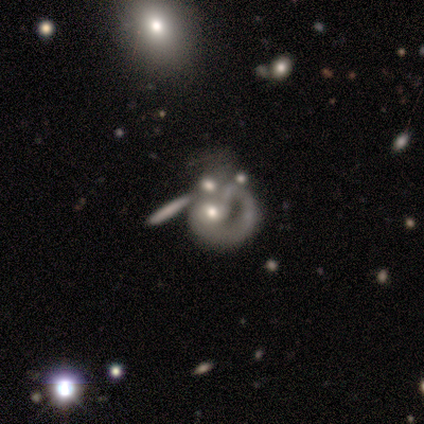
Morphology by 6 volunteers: Smooth or featured?
  - featured or disk: 50% *
  - smooth: 33%
  - star or artifact: 17%
Edge-on disk?
  - no: 100% *
  - yes: 0%
Bar?
  - no: 100% *
  - strong: 0%
  - weak: 0%
Spiral arms?
  - no: 67% *
  - yes: 33%
Bulge size?
  - moderate: 33% * (tied)
  - small: 33% * (tied)
  - none: 33% * (tied)
  - dominant: 0%
  - large: 0%
Merging?
  - merger: 60% *
  - none: 20%
  - major disturbance: 20%
  - minor disturbance: 0%